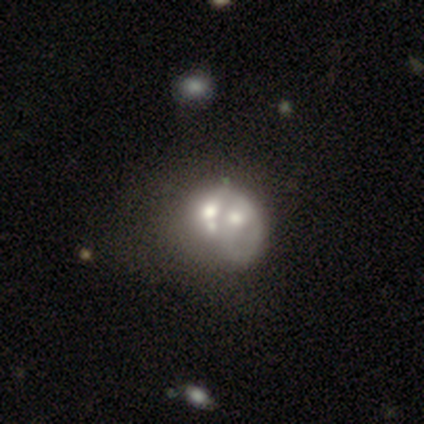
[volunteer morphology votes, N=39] Volunteers were most divided on "bulge size": moderate: 41%, none: 33%, large: 11%, small: 11%, dominant: 4%. More confident: edge-on disk — no (100%); bar — no (100%); spiral arms — no (96%); smooth or featured — featured or disk (69%); merging — merger (59%).